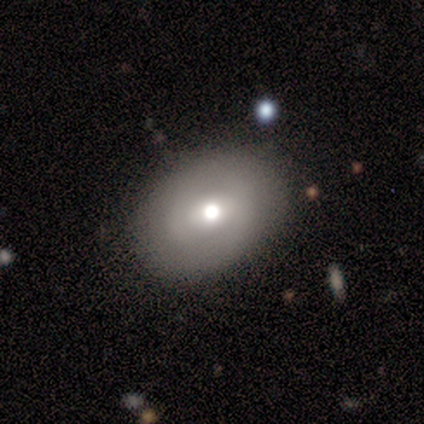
A smooth galaxy with no disk features (100%) that is in between round and cigar-shaped (100%). Merging: none (80%).